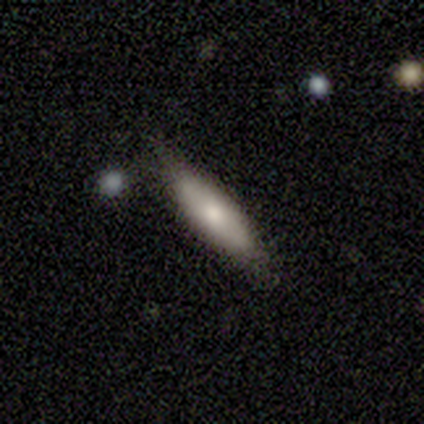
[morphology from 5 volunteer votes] Overall: smooth (60%; featured or disk 40%). How rounded: in between (67%; cigar-shaped 33%). Merging: none (80%).